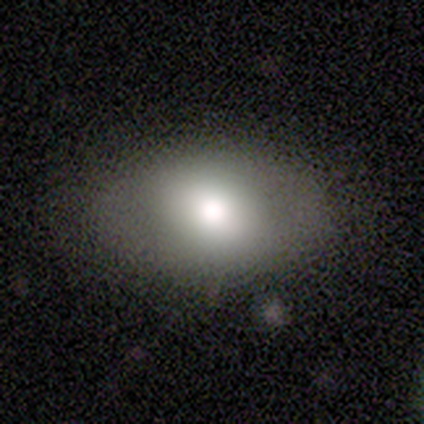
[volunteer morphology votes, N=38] smooth 61%, featured or disk 24%, star or artifact 16%. Down the decision tree: how rounded — in between (74%); merging — none (94%).